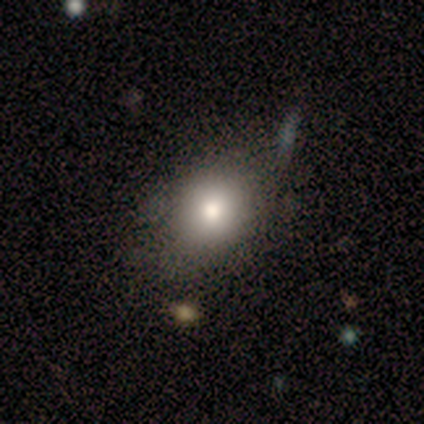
Volunteers were most divided on "how rounded": in between: 57%, round: 43%, cigar-shaped: 0%. More confident: smooth or featured — smooth (88%); merging — none (62%).